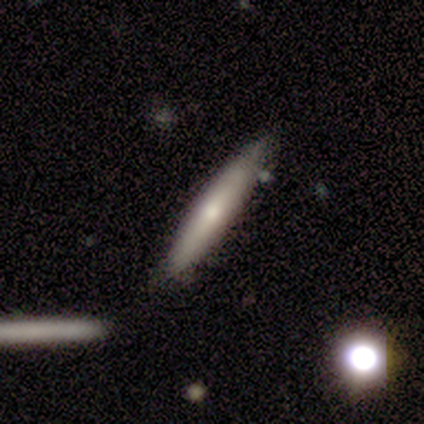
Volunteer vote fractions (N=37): This appears to be a featured or disk galaxy (51%) viewed edge-on (95%) with a rounded central bulge (72%). Merging: none (72%).